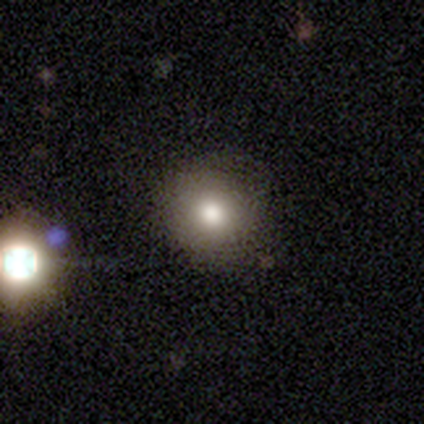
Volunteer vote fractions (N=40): A smooth galaxy with no disk features (85%) that is round (94%).

Vote fractions:
- Smooth or featured? smooth: 85% / featured or disk: 12% / star or artifact: 2%
- How rounded? round: 94% / in between: 6% / cigar-shaped: 0%
- Merging? none: 85% / minor disturbance: 13% / major disturbance: 3% / merger: 0%